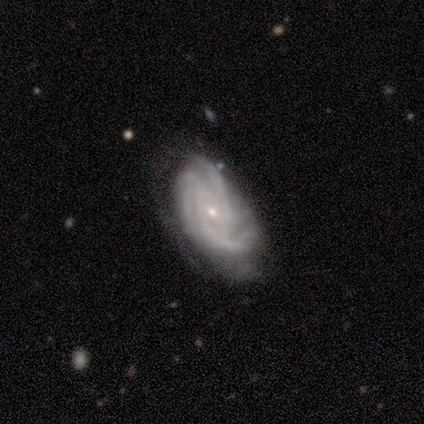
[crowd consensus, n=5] Smooth or featured? 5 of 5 (100%) said featured or disk. Edge-on disk? 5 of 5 (100%) said no. Bar? 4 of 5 (80%) said no. Spiral arms? 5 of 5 (100%) said yes. Spiral winding? 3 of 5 (60%) said tight. Spiral arm count? 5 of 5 (100%) said 3. Bulge size? 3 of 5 (60%) said small. Merging? 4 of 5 (80%) said none.